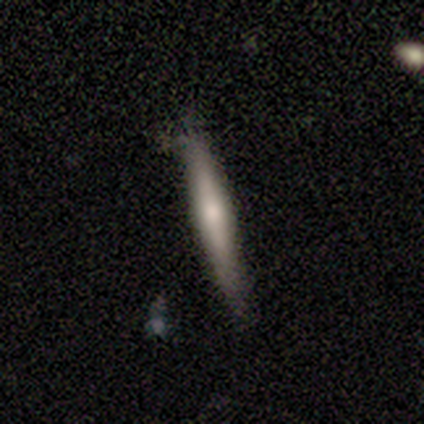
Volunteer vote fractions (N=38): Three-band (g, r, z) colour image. It shows a featured or disk galaxy (55%) viewed edge-on (95%) with a rounded central bulge (75%). Merging: none (68%).